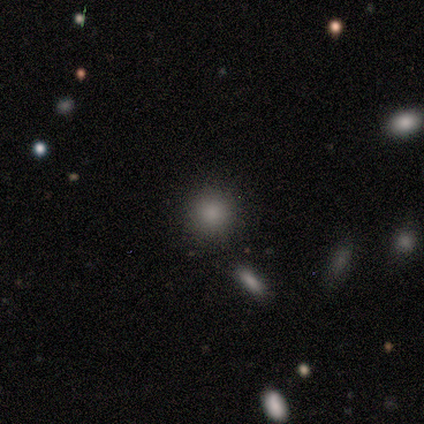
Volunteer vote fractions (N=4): Overall: smooth (75%). How rounded: round (100%). Merging: none (100%).